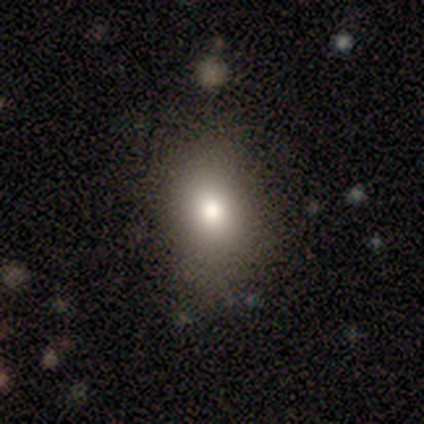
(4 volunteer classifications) Smooth or featured? 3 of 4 (75%) said smooth. How rounded? 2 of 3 (67%) said round. Merging? 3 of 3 (100%) said none.